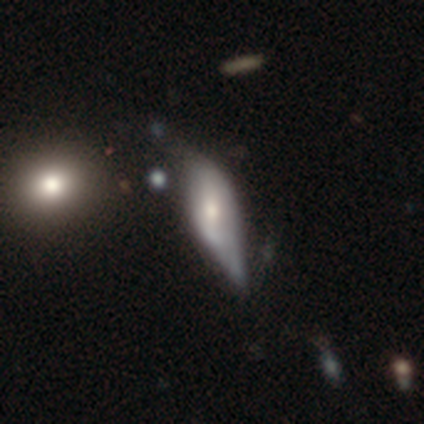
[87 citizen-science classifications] smooth_or_featured: smooth (p=0.49) [alt: featured or disk p=0.43]
how_rounded: in between (p=0.58) [alt: cigar-shaped p=0.37]
merging: minor disturbance (p=0.40) [alt: major disturbance p=0.34]